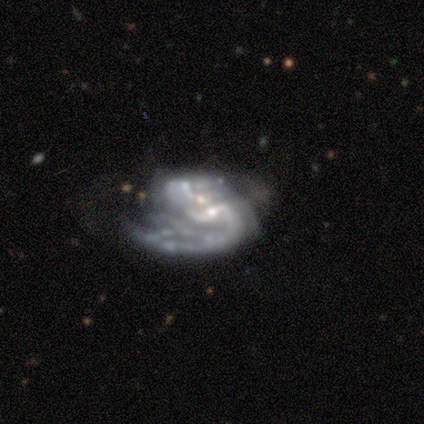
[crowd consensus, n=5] smooth_or_featured: featured or disk (p=1.00)
disk_edge_on: no (p=1.00)
bar: weak (p=1.00)
has_spiral_arms: yes (p=0.80) [alt: no p=0.20]
spiral_winding: loose (p=0.75) [alt: medium p=0.25]
spiral_arm_count: 1 (p=0.50) [alt: 2 p=0.25]
bulge_size: small (p=0.80) [alt: moderate p=0.20]
merging: major disturbance (p=0.60) [alt: none p=0.20]